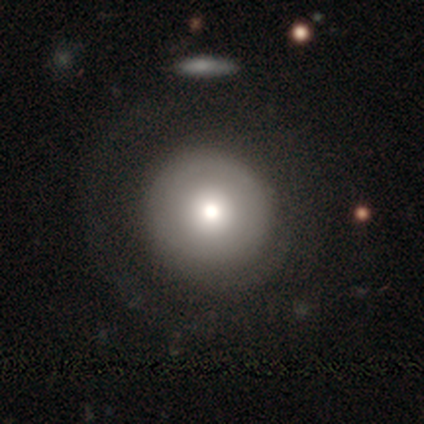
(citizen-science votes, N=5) Smooth or featured? 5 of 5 (100%) said smooth. How rounded? 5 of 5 (100%) said round. Merging? 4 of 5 (80%) said none.